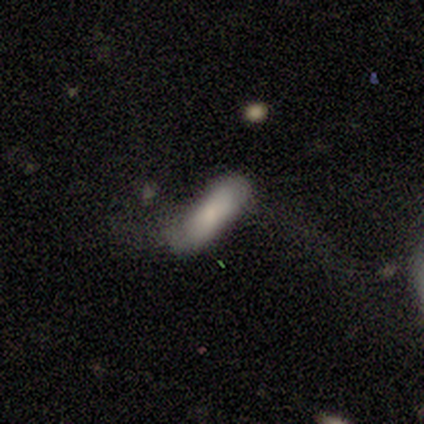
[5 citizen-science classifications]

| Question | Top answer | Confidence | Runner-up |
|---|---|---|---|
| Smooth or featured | smooth | 100% | — |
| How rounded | in between | 80% | cigar-shaped (20%) |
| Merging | none | 40% | tied: major disturbance (40%) |